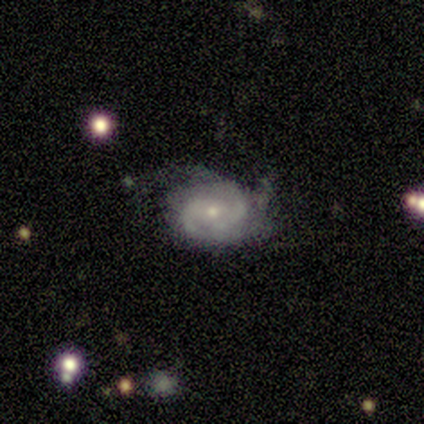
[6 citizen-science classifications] This appears to be a featured or disk galaxy (100%) with no bar (50%), 2 (60%) tight (60%) spiral arms (83%) and a small central bulge (50%). Merging: none (67%).